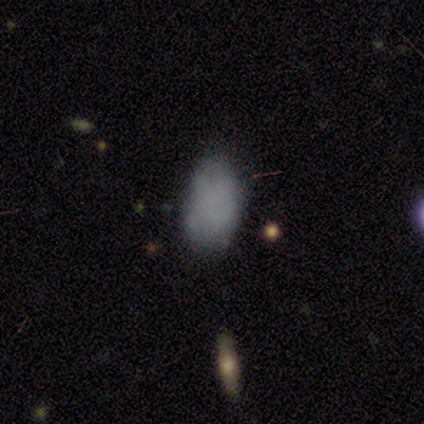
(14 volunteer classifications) Smooth or featured? 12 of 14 (86%) said smooth. How rounded? 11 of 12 (92%) said in between. Merging? 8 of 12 (67%) said none.